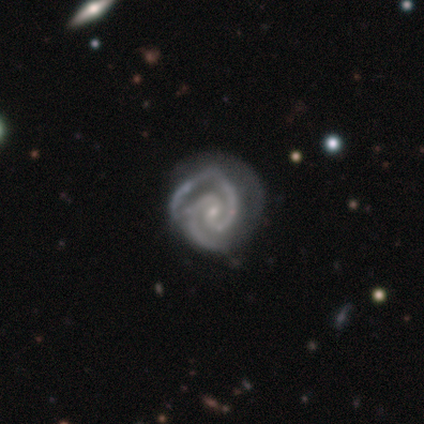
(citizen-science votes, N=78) Smooth or featured? 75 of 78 (96%) said featured or disk. Edge-on disk? 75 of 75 (100%) said no. Bar? 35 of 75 (47%) said weak. Spiral arms? 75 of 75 (100%) said yes. Spiral winding? 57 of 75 (76%) said tight. Spiral arm count? 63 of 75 (84%) said 2. Bulge size? 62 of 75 (83%) said small. Merging? 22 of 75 (29%) said none.